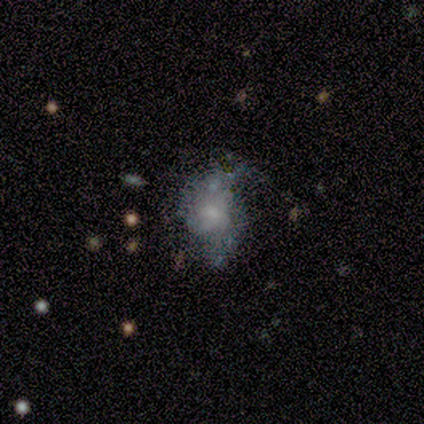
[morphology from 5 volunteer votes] smooth-or-featured: star or artifact: 60% | smooth: 40% | featured or disk: 0%